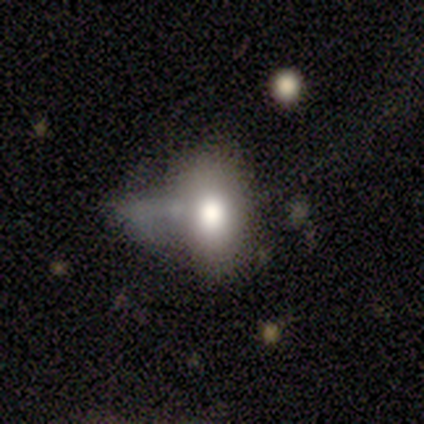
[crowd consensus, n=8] smooth-or-featured: smooth: 75% | featured or disk: 25% | star or artifact: 0%
  how-rounded: in between: 83% | round: 17% | cigar-shaped: 0%
  merging: minor disturbance: 50% | major disturbance: 25% | none: 12% | merger: 12%